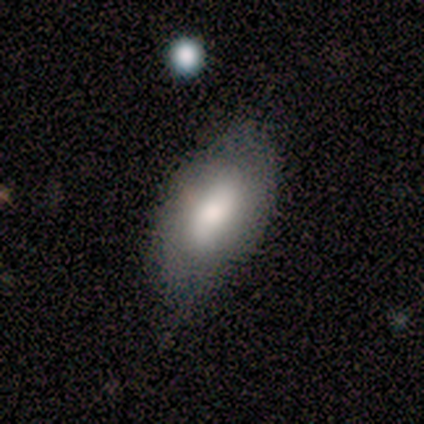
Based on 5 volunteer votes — Smooth or featured?
  - smooth: 100% *
  - featured or disk: 0%
  - star or artifact: 0%
How rounded?
  - in between: 100% *
  - round: 0%
  - cigar-shaped: 0%
Merging?
  - minor disturbance: 60% *
  - none: 40%
  - major disturbance: 0%
  - merger: 0%